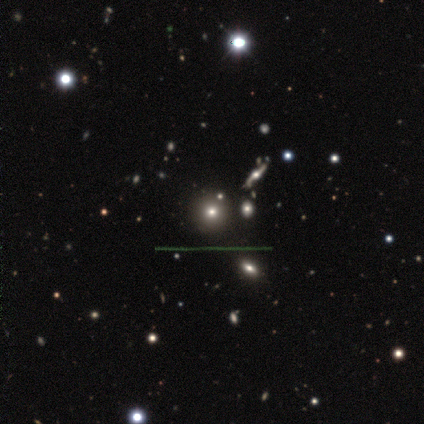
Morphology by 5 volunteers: Smooth or featured? smooth (60%)
How rounded? round (67%)
Merging? none (100%)